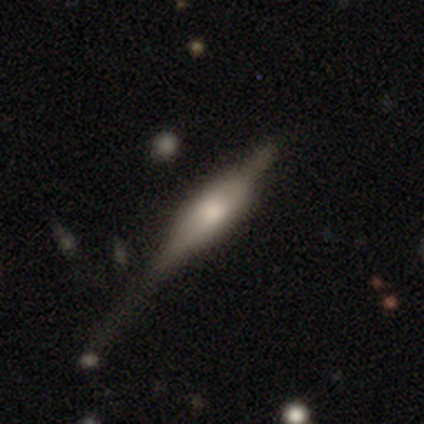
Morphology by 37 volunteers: Smooth or featured? featured or disk (57%)
Edge-on disk? yes (90%)
Edge-on bulge? boxy (58%)
Merging? none (33%)